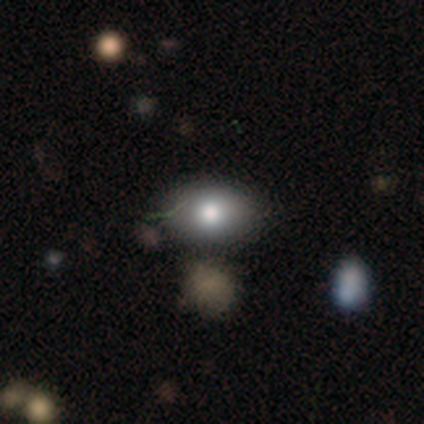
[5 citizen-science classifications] smooth 40% (tied), featured or disk 40% (tied), star or artifact 20%. Down the decision tree: how rounded — in between (100%); merging — none (100%).